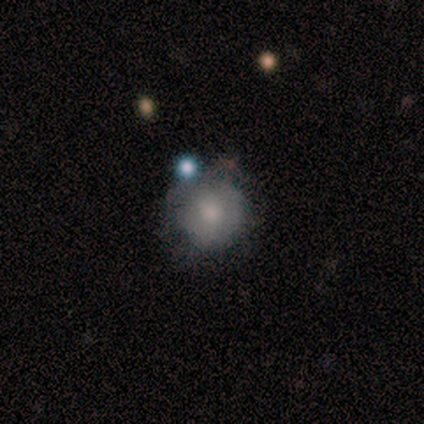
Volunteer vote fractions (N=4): smooth-or-featured: smooth: 50% | featured or disk: 25% | star or artifact: 25%
  how-rounded: round: 100% | in between: 0% | cigar-shaped: 0%
  merging: none: 100% | minor disturbance: 0% | major disturbance: 0% | merger: 0%